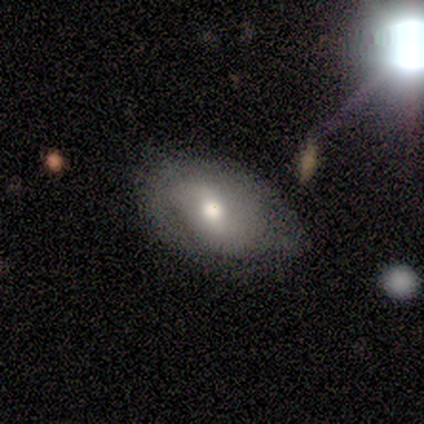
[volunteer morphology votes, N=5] smooth 40% (tied), featured or disk 40% (tied), star or artifact 20%. Down the decision tree: how rounded — in between (100%); merging — none (75%).